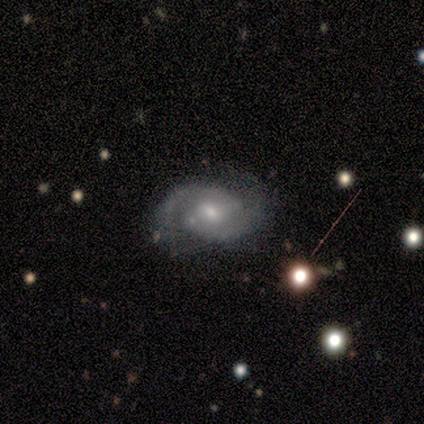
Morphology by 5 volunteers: Volunteers were most divided on "spiral winding": tight: 60%, medium: 20%, loose: 20%. More confident: smooth or featured — featured or disk (100%); edge-on disk — no (100%); bar — weak (100%); spiral arms — yes (100%); spiral arm count — 2 (100%); merging — none (100%); bulge size — moderate (80%).